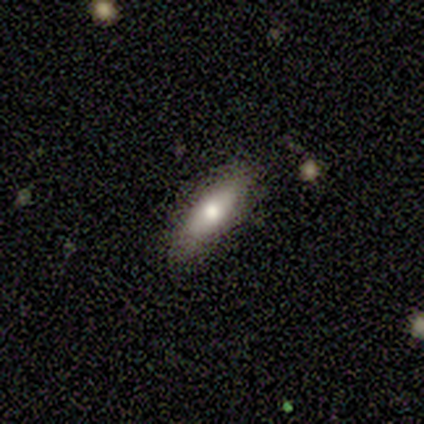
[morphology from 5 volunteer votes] Smooth or featured: smooth — 100%
How rounded: in between — 80% (cigar-shaped — 20%)
Merging: none — 80% (minor disturbance — 20%)